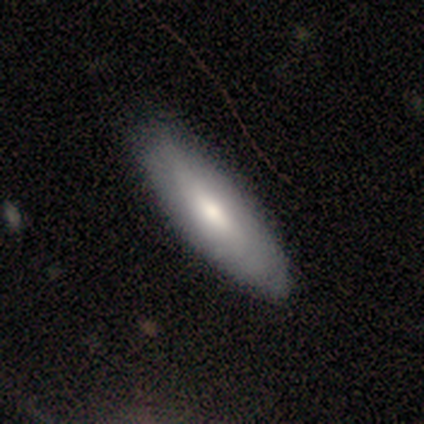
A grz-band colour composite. It shows a smooth galaxy with no disk features (50%, tied with featured or disk) that is in between round and cigar-shaped (67%). Merging: none (67%).